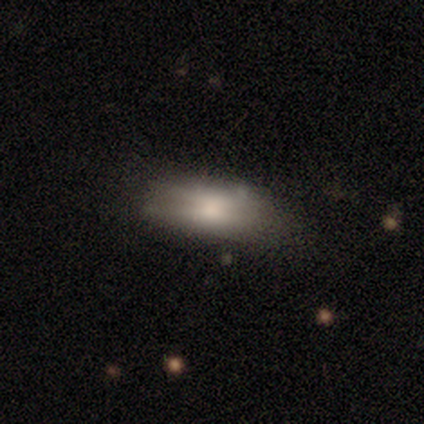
A smooth galaxy with no disk features (72%) that is in between round and cigar-shaped (75%). Merging: none (53%).